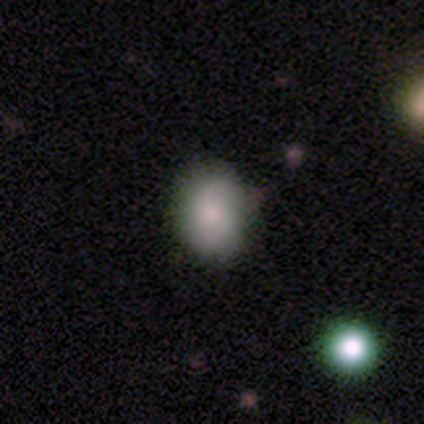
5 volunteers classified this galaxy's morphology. type=smooth (100%); roundness=in between (100%); merging=none (60%).